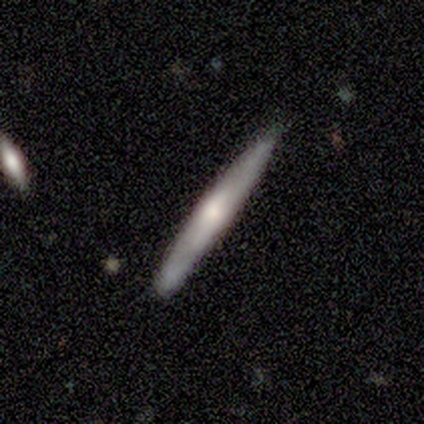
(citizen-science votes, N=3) Smooth or featured? 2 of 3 (67%) said featured or disk. Edge-on disk? 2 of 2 (100%) said yes. Edge-on bulge? 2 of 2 (100%) said rounded. Merging? 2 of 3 (67%) said none.